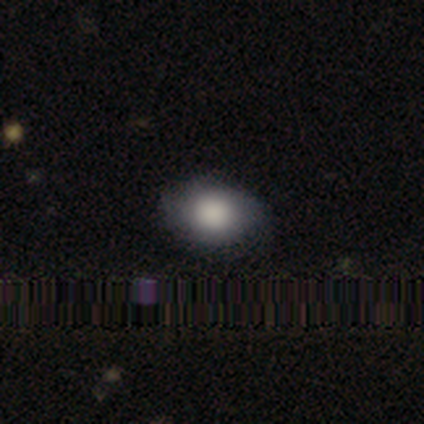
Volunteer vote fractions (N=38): Volunteers were most divided on "how rounded": in between: 69%, round: 31%, cigar-shaped: 0%. More confident: smooth or featured — smooth (84%); merging — none (74%).